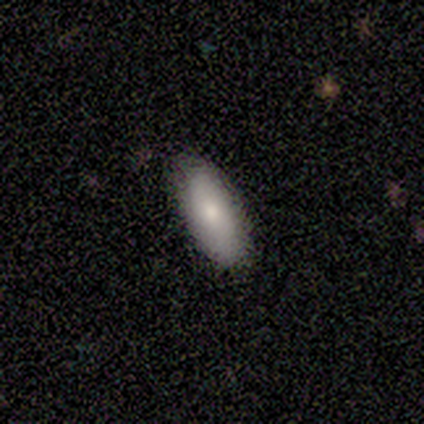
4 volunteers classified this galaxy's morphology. Smooth or featured? smooth (75%)
How rounded? cigar-shaped (67%)
Merging? none (75%)